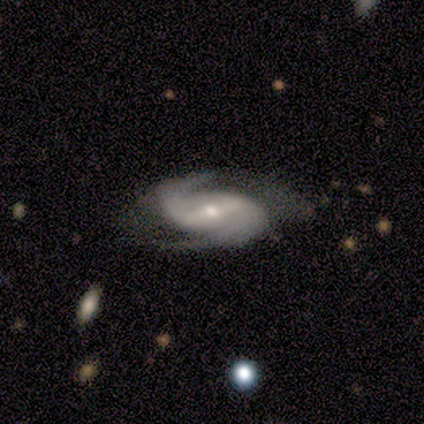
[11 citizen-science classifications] Overall: featured or disk (91%). Edge-on disk: no (100%). Bar: weak (50%; strong 40%). Spiral arms: yes (100%). Spiral arm count: 2 (100%). Spiral winding: medium (70%; tight 30%). Bulge size: moderate (50%, tied with small). Merging: none (60%; minor disturbance 30%).